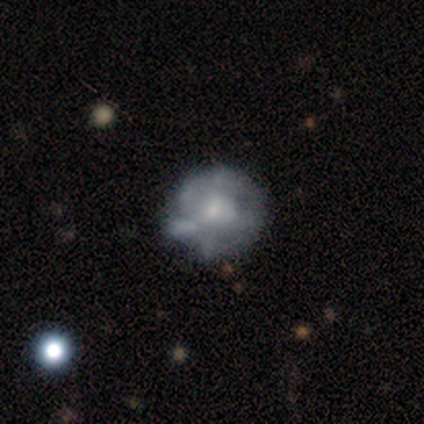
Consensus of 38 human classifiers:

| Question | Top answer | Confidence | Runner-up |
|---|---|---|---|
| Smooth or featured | featured or disk | 76% | smooth (24%) |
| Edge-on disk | no | 100% | — |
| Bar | no | 83% | weak (17%) |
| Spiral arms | no | 69% | yes (31%) |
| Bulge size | small | 59% | moderate (34%) |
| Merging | none | 37% | minor disturbance (16%) |